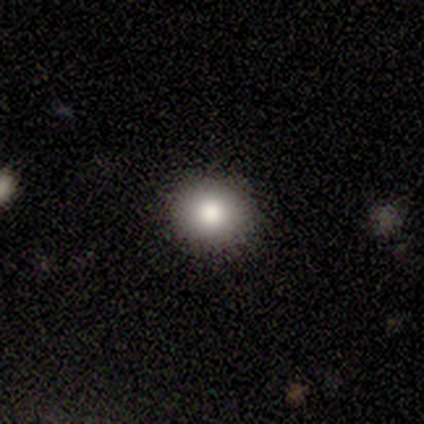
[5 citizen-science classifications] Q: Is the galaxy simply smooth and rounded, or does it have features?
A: smooth — 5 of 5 (100%).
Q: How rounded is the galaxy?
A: round — 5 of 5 (100%).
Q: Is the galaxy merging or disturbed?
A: none — 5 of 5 (100%).